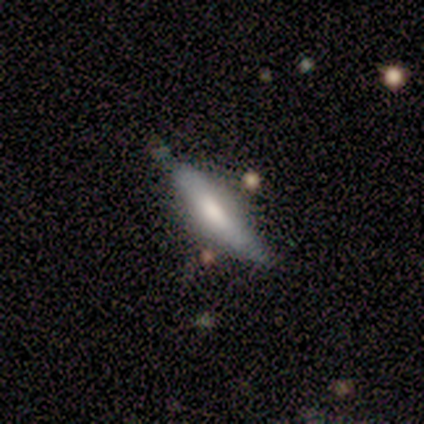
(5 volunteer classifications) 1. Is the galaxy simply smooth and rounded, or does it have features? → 80% smooth, 20% featured or disk, 0% star or artifact.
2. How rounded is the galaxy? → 75% cigar-shaped, 25% in between, 0% round.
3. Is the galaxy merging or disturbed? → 80% none, 20% merger, 0% minor disturbance, 0% major disturbance.